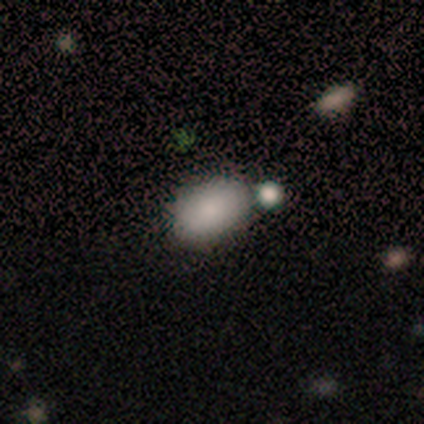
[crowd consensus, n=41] A smooth galaxy with no disk features (88%) that is in between round and cigar-shaped (94%).

Vote fractions:
- Smooth or featured? smooth: 88% / featured or disk: 10% / star or artifact: 2%
- How rounded? in between: 94% / round: 6% / cigar-shaped: 0%
- Merging? none: 68% / minor disturbance: 18% / merger: 12% / major disturbance: 2%